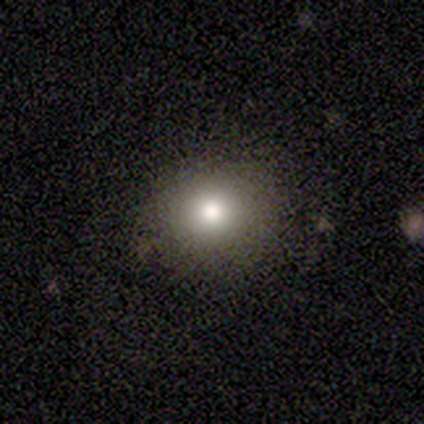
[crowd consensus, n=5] This is clearly a smooth galaxy (100%). How rounded: likely round (60%). Merging: clearly none (80%).